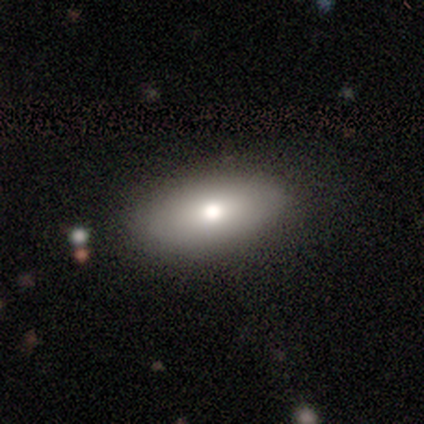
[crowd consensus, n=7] Smooth or featured?
  - smooth: 86% *
  - featured or disk: 14%
  - star or artifact: 0%
How rounded?
  - in between: 100% *
  - round: 0%
  - cigar-shaped: 0%
Merging?
  - none: 100% *
  - minor disturbance: 0%
  - major disturbance: 0%
  - merger: 0%